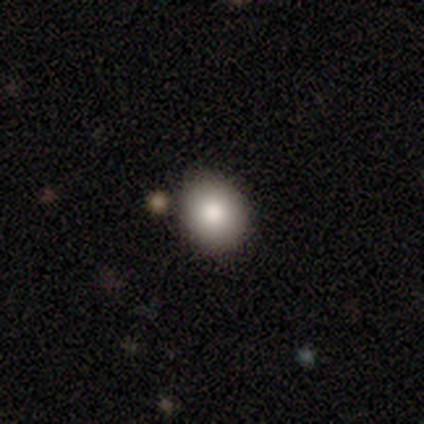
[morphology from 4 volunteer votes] smooth-or-featured: smooth: 75% | star or artifact: 25% | featured or disk: 0%
  how-rounded: in between: 67% | round: 33% | cigar-shaped: 0%
  merging: none: 100% | minor disturbance: 0% | major disturbance: 0% | merger: 0%